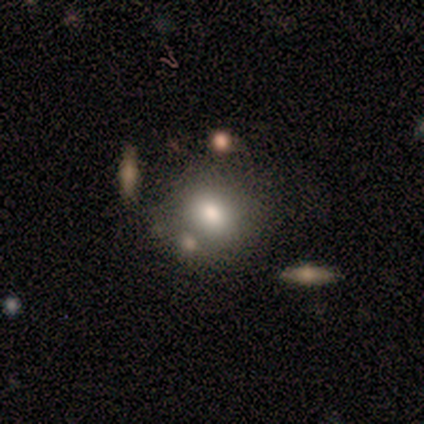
Morphology: type=smooth (67%); roundness=round (50%, tied with in between); merging=none (82%).